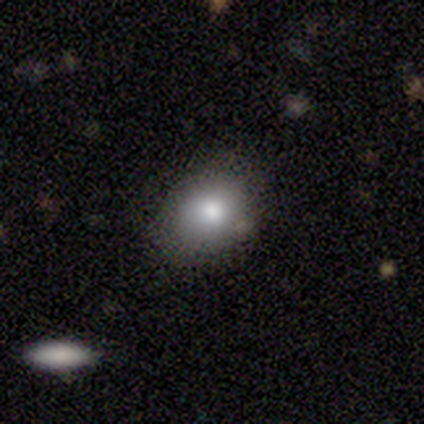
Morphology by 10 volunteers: Volunteers were most divided on "merging": none: 56%, minor disturbance: 44%, major disturbance: 0%, merger: 0%. More confident: smooth or featured — smooth (80%); how rounded — in between (62%).